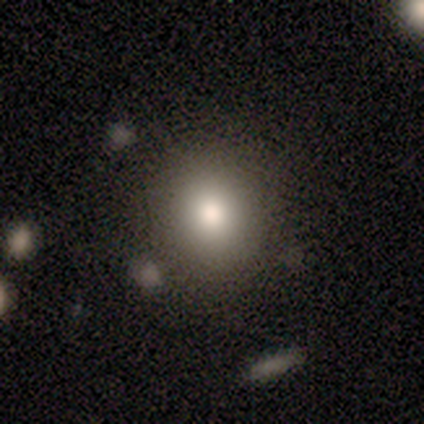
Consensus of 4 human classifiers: This appears to be a smooth galaxy with no disk features (100%) that is round (75%). Merging: none (75%).